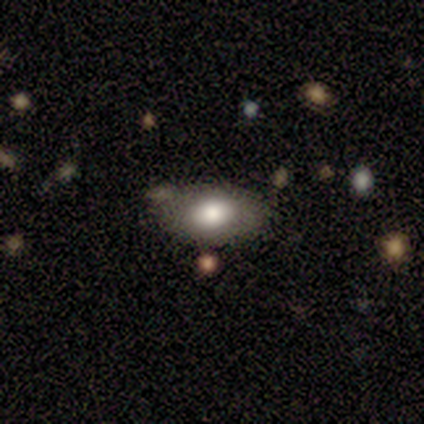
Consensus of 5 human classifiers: This appears to be a smooth galaxy with no disk features (100%) that is in between round and cigar-shaped (80%). Merging: none (80%).